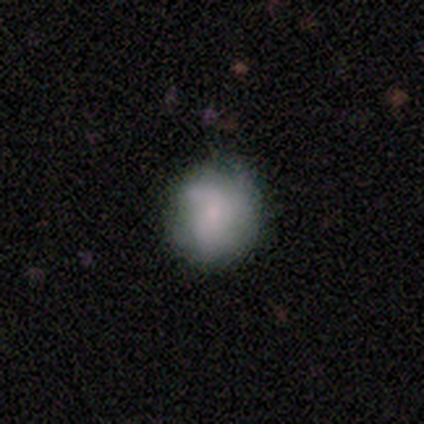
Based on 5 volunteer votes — This is clearly a smooth galaxy (80%). How rounded: clearly round (100%). Merging: likely none (60%).